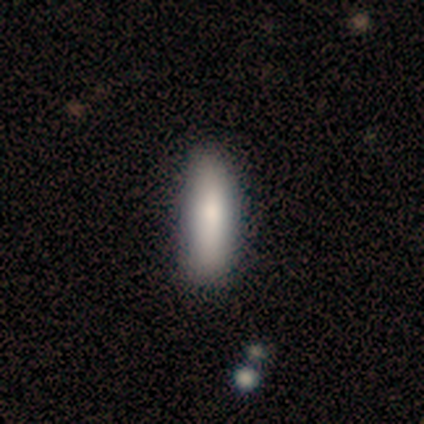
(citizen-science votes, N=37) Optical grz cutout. It shows a smooth galaxy with no disk features (65%) that is cigar-shaped (79%). Merging: none (81%).